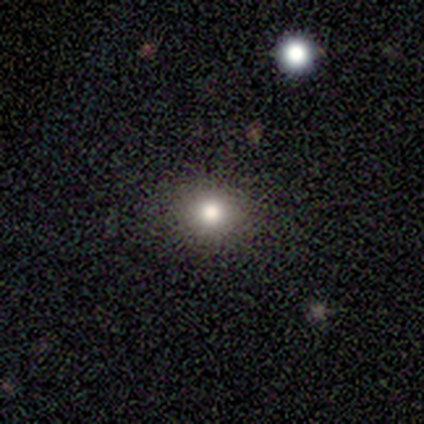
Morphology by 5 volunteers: smooth 100%, featured or disk 0%, star or artifact 0%. Down the decision tree: how rounded — round (80%); merging — none (100%).